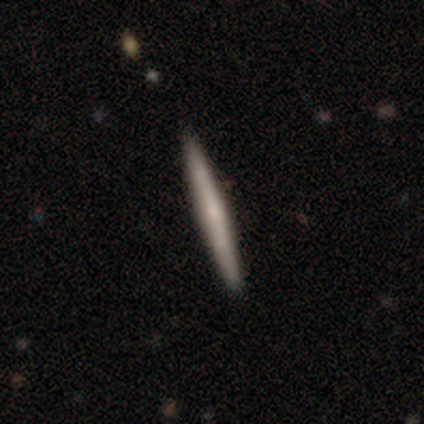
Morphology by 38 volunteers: type=smooth (50%); roundness=cigar-shaped (100%); merging=none (94%).